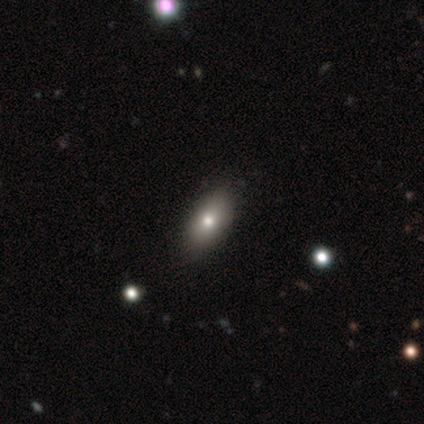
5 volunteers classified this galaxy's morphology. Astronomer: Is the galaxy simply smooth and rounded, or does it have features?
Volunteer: smooth — 60% (runner-up: featured or disk, 40%).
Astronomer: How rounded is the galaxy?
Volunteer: in between — 100%.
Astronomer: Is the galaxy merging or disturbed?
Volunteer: none — 80%.